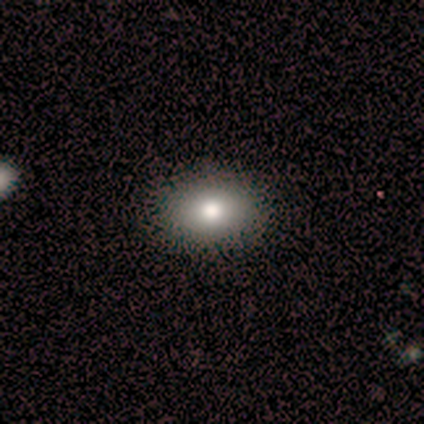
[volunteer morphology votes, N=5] A smooth galaxy with no disk features (100%) that is in between round and cigar-shaped (80%). Merging: none (100%).